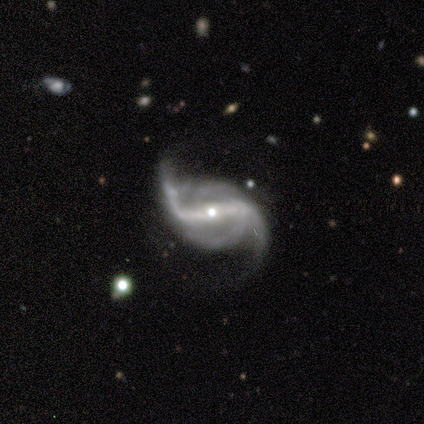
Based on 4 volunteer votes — A featured or disk galaxy (100%) with a strong bar (75%), 2 (75%) loose (75%) spiral arms (100%) and a large central bulge (50%, tied with moderate).

Vote fractions:
- Smooth or featured? featured or disk: 100% / smooth: 0% / star or artifact: 0%
- Edge-on disk? no: 100% / yes: 0%
- Bar? strong: 75% / no: 25% / weak: 0%
- Spiral arms? yes: 100% / no: 0%
- Spiral winding? loose: 75% / medium: 25% / tight: 0%
- Spiral arm count? 2: 75% / 3: 25% / 1: 0% / 4: 0% / more than 4: 0% / can't tell: 0%
- Bulge size? large: 50% (tied) / moderate: 50% (tied) / dominant: 0% / small: 0% / none: 0%
- Merging? none: 75% / minor disturbance: 25% / major disturbance: 0% / merger: 0%